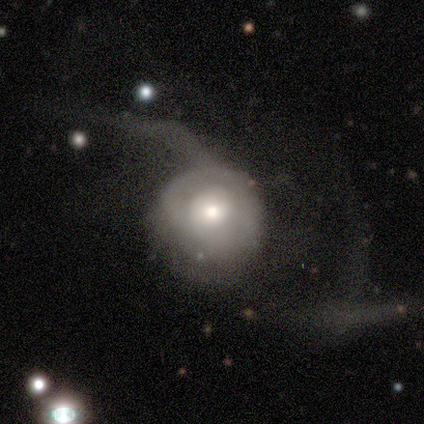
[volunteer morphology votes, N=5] Smooth or featured? 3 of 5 (60%) said smooth. How rounded? 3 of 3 (100%) said round. Merging? 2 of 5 (40%, tied with major disturbance) said minor disturbance.